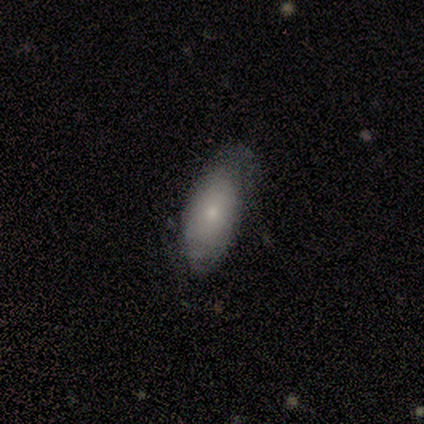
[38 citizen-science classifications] Morphology: type=smooth (61%); roundness=in between (96%); merging=none (69%).